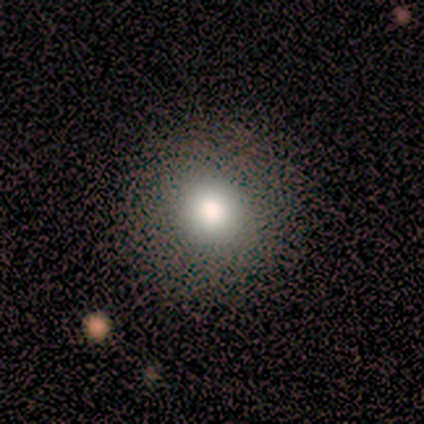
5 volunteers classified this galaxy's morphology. This is clearly a smooth galaxy (100%). How rounded: clearly round (100%). Merging: clearly none (100%).